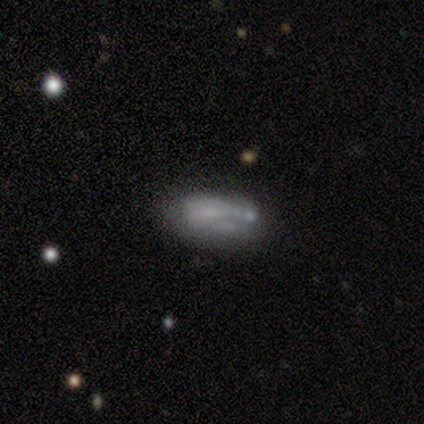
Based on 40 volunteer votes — Smooth or featured: featured or disk — 48% (smooth — 40%)
Edge-on disk: no — 100%
Bar: no — 84% (weak — 16%)
Spiral arms: no — 79% (yes — 21%)
Bulge size: none — 95% (small — 5%)
Merging: none — 51% (minor disturbance — 31%)